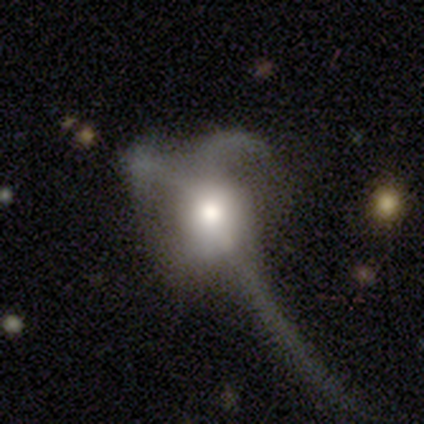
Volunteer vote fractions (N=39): A featured or disk galaxy (49%) with no bar (100%), no spiral arms (83%) and a large central bulge (56%). Merging: major disturbance (71%).